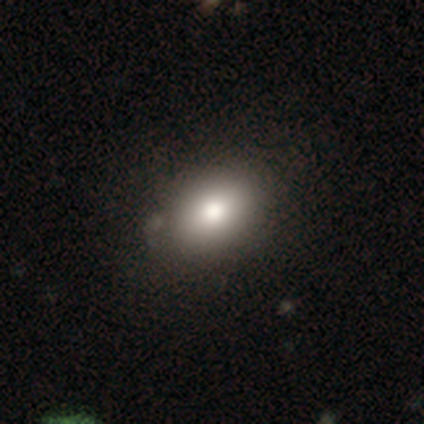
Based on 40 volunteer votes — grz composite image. It shows a smooth galaxy with no disk features (85%) that is in between round and cigar-shaped (82%). Merging: none (32%).